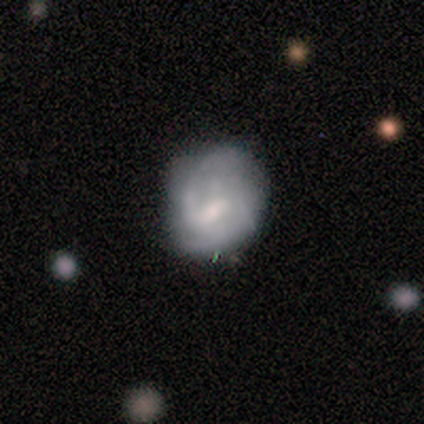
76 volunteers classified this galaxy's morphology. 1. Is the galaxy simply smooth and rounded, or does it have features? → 68% featured or disk, 24% smooth, 8% star or artifact.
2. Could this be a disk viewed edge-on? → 98% no, 2% yes.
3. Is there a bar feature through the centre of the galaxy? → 47% weak, 41% no, 12% strong.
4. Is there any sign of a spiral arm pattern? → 82% yes, 18% no.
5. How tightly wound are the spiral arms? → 55% medium, 26% tight, 19% loose.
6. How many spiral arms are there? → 48% 2, 24% can't tell, 14% 1, 14% 3, 0% 4, 0% more than 4.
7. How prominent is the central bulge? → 45% moderate, 25% small, 25% none, 2% dominant, 2% large.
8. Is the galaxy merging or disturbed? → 19% none (tied), 19% minor disturbance (tied), 10% major disturbance, 3% merger.